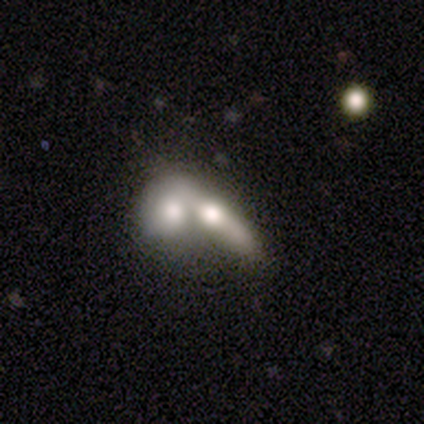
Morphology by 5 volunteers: This is clearly a smooth galaxy (80%). How rounded: possibly cigar-shaped (50%). Merging: clearly merger (100%).